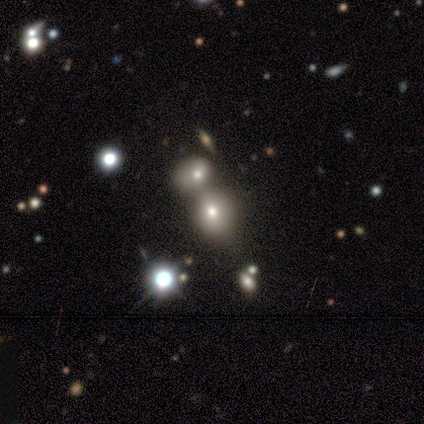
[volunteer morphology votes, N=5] smooth 60%, featured or disk 20%, star or artifact 20%. Down the decision tree: how rounded — round (100%); merging — merger (75%).